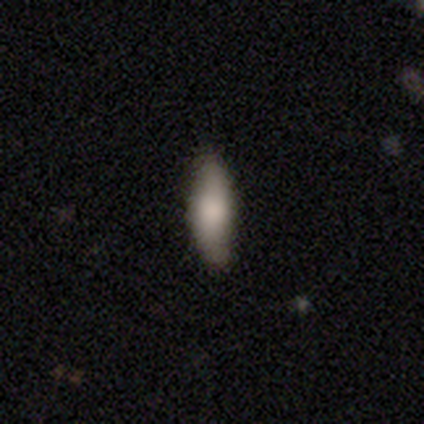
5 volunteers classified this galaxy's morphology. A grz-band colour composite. It shows a smooth galaxy with no disk features (80%) that is cigar-shaped (75%). Merging: none (80%).